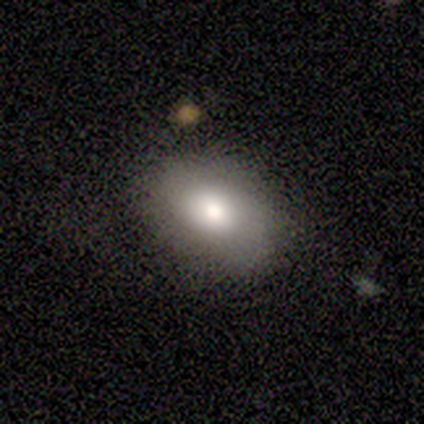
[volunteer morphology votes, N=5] Smooth or featured?
  - smooth: 80% *
  - featured or disk: 20%
  - star or artifact: 0%
How rounded?
  - in between: 100% *
  - round: 0%
  - cigar-shaped: 0%
Merging?
  - none: 80% *
  - minor disturbance: 20%
  - major disturbance: 0%
  - merger: 0%